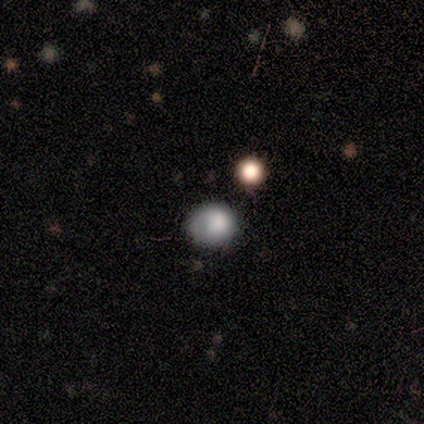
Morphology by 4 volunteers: Smooth or featured? smooth (75%)
How rounded? in between (67%)
Merging? none (67%)